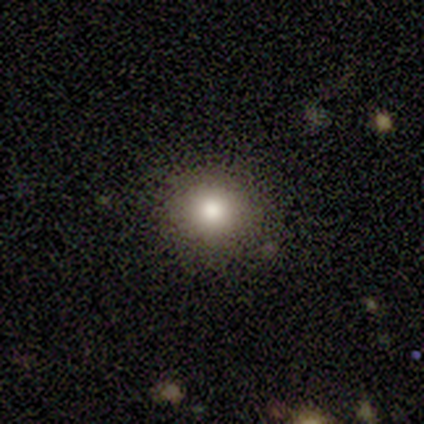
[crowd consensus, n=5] Smooth or featured: star or artifact — 60% (smooth — 40%)